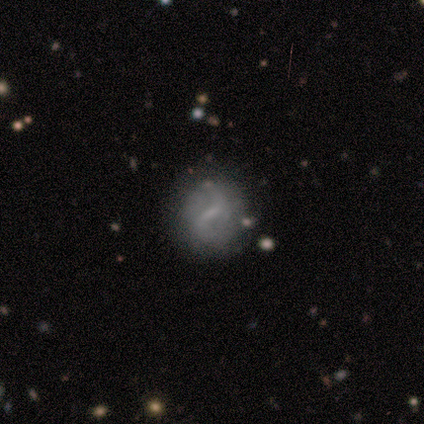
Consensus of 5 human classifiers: Morphology: type=featured or disk (80%); edge-on=no (100%); bar=weak (50%); spiral arms=yes (100%); winding=loose (75%); arm count=2 (100%); bulge=none (50%); merging=none (100%).